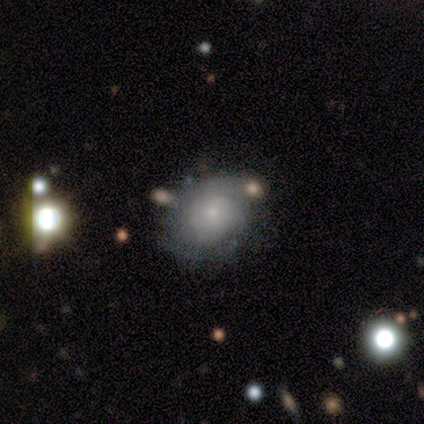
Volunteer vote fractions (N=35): smooth_or_featured: featured or disk (p=0.54) [alt: smooth p=0.37]
disk_edge_on: no (p=0.95) [alt: yes p=0.05]
bar: no (p=0.89) [alt: weak p=0.11]
has_spiral_arms: yes (p=0.83) [alt: no p=0.17]
spiral_winding: medium (p=0.47) [alt: tight p=0.40]
spiral_arm_count: can't tell (p=0.67) [alt: 2 p=0.27]
bulge_size: small (p=0.94) [alt: moderate p=0.06]
merging: none (p=0.72) [alt: minor disturbance p=0.16]